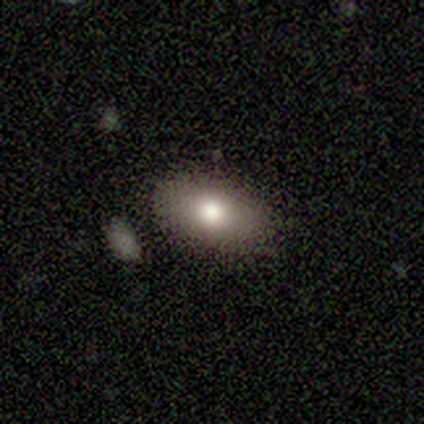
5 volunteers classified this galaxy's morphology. smooth 80%, star or artifact 20%, featured or disk 0%. Down the decision tree: how rounded — round (50%, tied with in between); merging — none (50%).